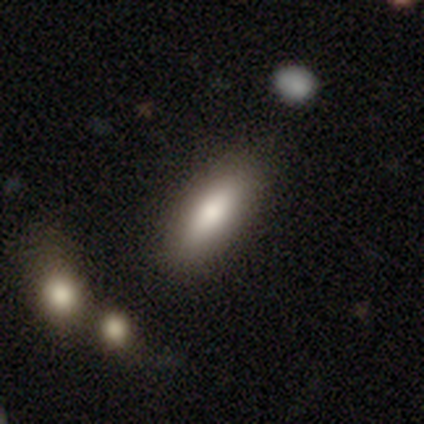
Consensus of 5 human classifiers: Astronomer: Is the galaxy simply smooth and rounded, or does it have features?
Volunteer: smooth — 100%.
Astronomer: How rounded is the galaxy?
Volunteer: in between — 40%, tied with cigar-shaped at 40%.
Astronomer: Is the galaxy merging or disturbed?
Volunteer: none — 100%.